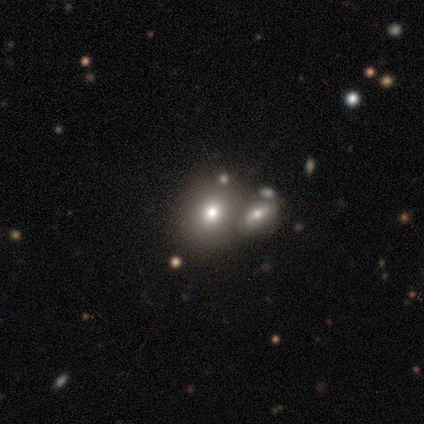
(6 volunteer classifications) Volunteers were most divided on "smooth or featured": smooth: 50%, featured or disk: 33%, star or artifact: 17%. More confident: merging — none (80%); how rounded — round (67%).